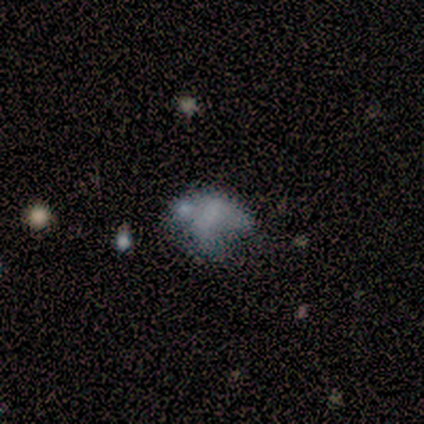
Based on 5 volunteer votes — Q: Smooth or featured?
A: smooth (60%); runner-up: featured or disk (40%)
Q: How rounded?
A: in between (67%); runner-up: round (33%)
Q: Merging?
A: none (60%); runner-up: minor disturbance (20%)